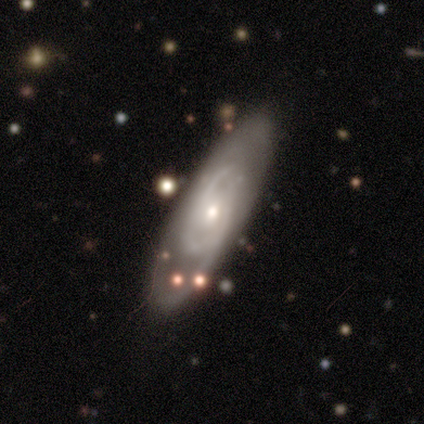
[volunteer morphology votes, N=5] This is marginally a smooth galaxy (40%, tied with featured or disk). How rounded: clearly in between (100%). Merging: likely none (75%).